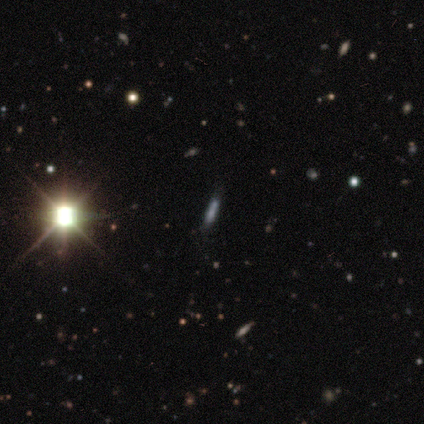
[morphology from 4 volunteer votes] A smooth galaxy with no disk features (50%, tied with star or artifact) that is cigar-shaped (100%).

Vote fractions:
- Smooth or featured? smooth: 50% (tied) / star or artifact: 50% (tied) / featured or disk: 0%
- How rounded? cigar-shaped: 100% / round: 0% / in between: 0%
- Merging? none: 50% (tied) / minor disturbance: 50% (tied) / major disturbance: 0% / merger: 0%